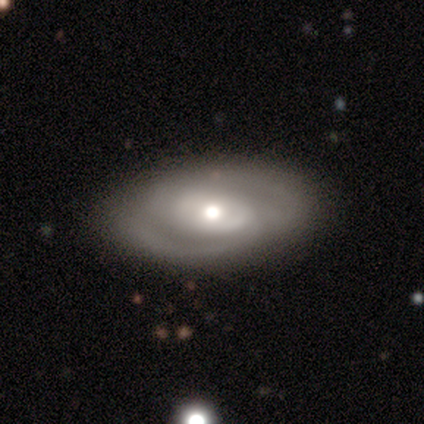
A smooth galaxy with no disk features (60%) that is in between round and cigar-shaped (100%). Merging: none (75%).